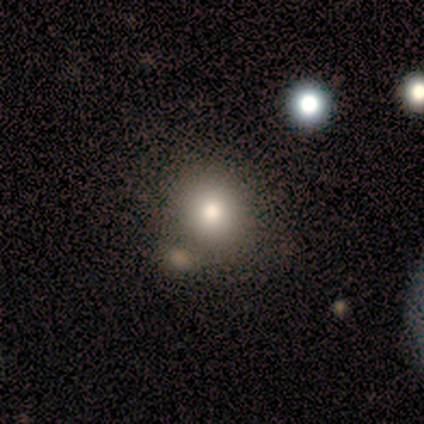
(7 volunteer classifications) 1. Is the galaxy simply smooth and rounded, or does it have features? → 71% smooth, 29% star or artifact, 0% featured or disk.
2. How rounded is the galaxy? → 60% round, 40% in between, 0% cigar-shaped.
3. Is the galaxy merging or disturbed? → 80% none, 20% minor disturbance, 0% major disturbance, 0% merger.